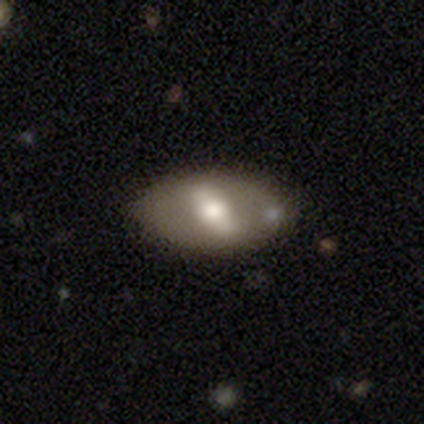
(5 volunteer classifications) Smooth or featured: featured or disk — 60% (smooth — 40%)
Edge-on disk: no — 100%
Bar: strong — 100%
Spiral arms: no — 100%
Bulge size: dominant — 33% (tied with large — 33%; moderate — 33%)
Merging: none — 60% (minor disturbance — 20%)